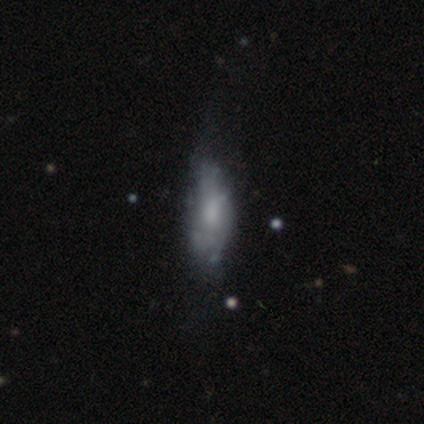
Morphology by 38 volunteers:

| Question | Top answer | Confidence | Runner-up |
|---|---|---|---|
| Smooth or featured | featured or disk | 53% | smooth (45%) |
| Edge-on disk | no | 95% | yes (5%) |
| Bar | no | 74% | weak (26%) |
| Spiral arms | no | 53% | yes (47%) |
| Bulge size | small | 37% | none (32%) |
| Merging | none | 41% | minor disturbance (27%) |